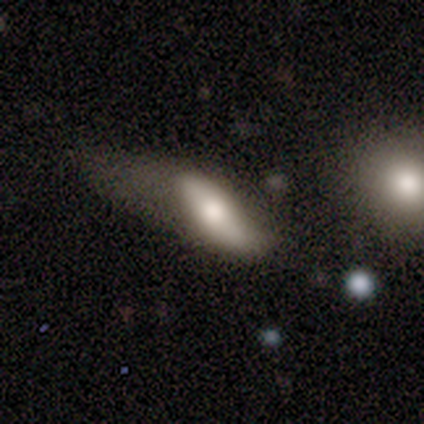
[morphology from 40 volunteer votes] Smooth or featured? 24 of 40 (60%) said smooth. How rounded? 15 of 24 (62%) said in between. Merging? 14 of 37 (38%) said major disturbance.